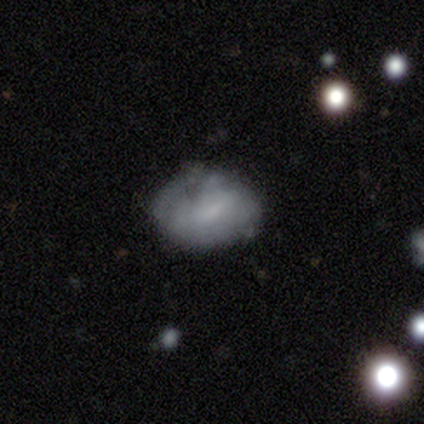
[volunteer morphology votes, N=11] type=smooth (73%); roundness=in between (62%); merging=none (70%).